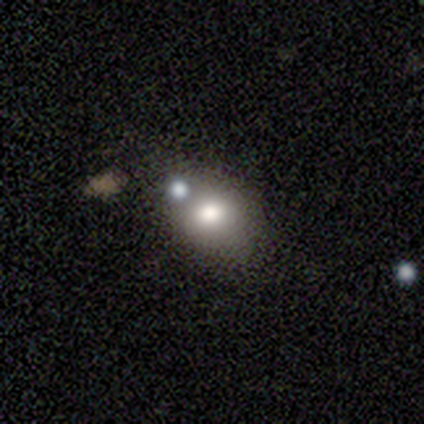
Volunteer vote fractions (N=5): Q: Smooth or featured?
A: smooth (80%); runner-up: featured or disk (20%)
Q: How rounded?
A: round (50%); tied with: in between (50%)
Q: Merging?
A: none (80%); runner-up: merger (20%)